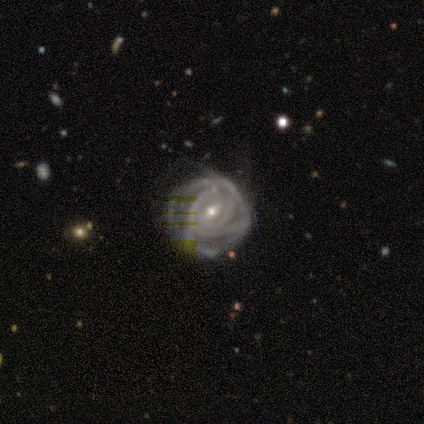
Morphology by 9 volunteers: type=featured or disk (100%); edge-on=no (89%); bar=weak (50%, tied with no); spiral arms=yes (88%); winding=tight (86%); arm count=4 (43%); bulge=small (62%); merging=minor disturbance (56%).